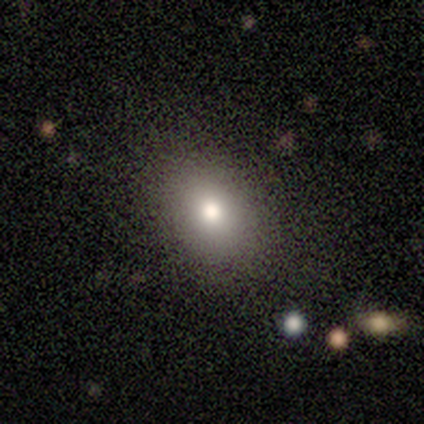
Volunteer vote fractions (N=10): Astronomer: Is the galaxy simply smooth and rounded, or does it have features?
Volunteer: smooth — 80%.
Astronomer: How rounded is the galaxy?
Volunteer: in between — 75%.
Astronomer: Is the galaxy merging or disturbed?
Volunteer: none — 90%.